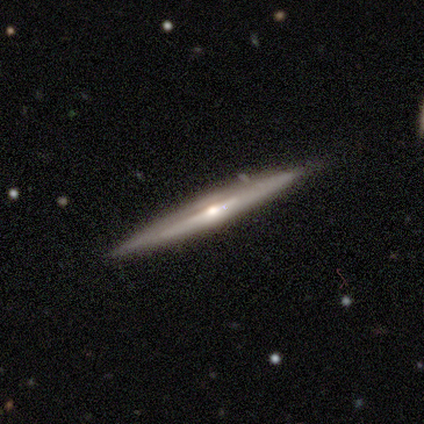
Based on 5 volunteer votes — Morphology: type=featured or disk (80%); edge-on=yes (100%); edge-on bulge=rounded (100%); merging=none (100%).